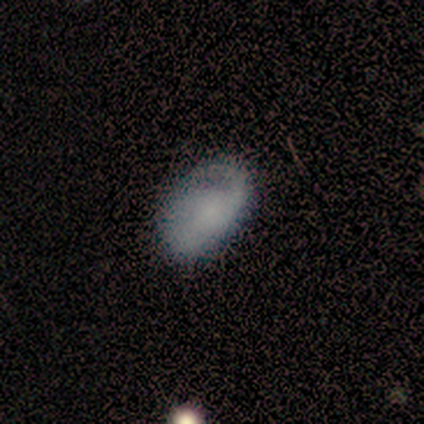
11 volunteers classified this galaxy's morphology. type=smooth (55%); roundness=in between (83%); merging=none (64%).